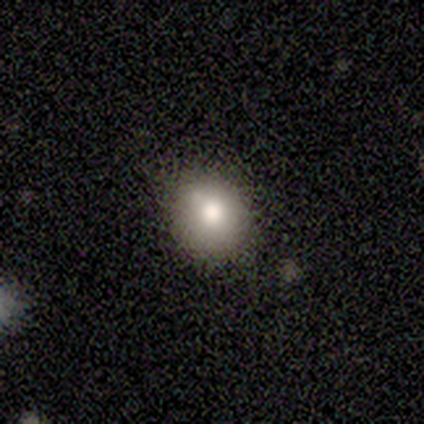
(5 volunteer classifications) Overall: smooth (80%). How rounded: round (50%, tied with in between). Merging: none (75%).